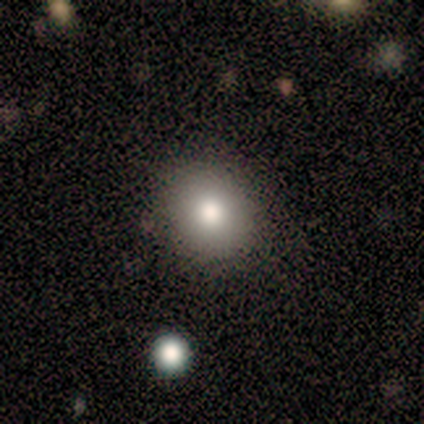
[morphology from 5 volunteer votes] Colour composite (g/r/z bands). It shows a smooth galaxy with no disk features (80%) that is round (100%). Merging: none (75%).